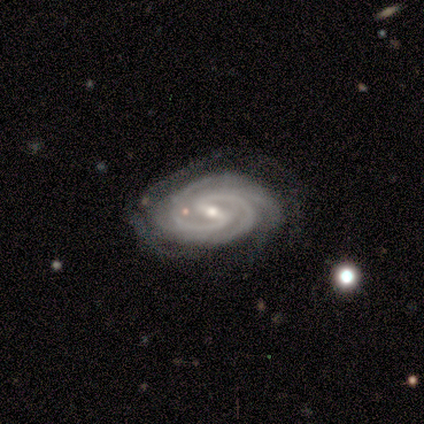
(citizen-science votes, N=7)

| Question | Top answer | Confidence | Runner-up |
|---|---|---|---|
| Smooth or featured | featured or disk | 100% | — |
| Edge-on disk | no | 100% | — |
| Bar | strong | 57% | weak (43%) |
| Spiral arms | yes | 100% | — |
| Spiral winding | tight | 86% | medium (14%) |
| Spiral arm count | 2 | 71% | 3 (14%) |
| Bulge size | small | 57% | moderate (43%) |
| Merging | minor disturbance | 43% | none (29%) |